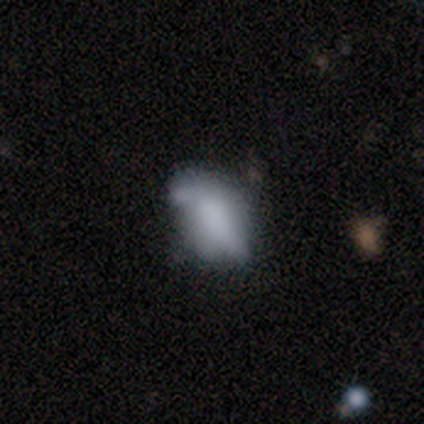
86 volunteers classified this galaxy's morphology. Volunteers were most divided on "merging": minor disturbance: 37%, none: 30%, major disturbance: 21%, merger: 12%. More confident: how rounded — in between (80%); smooth or featured — smooth (63%).